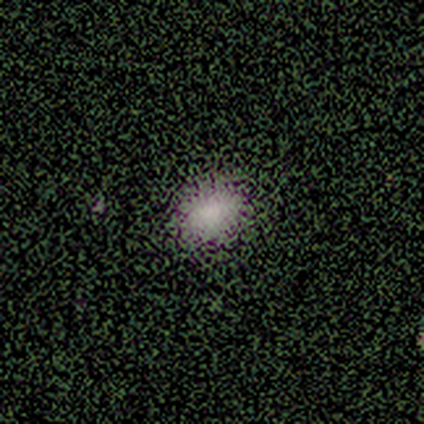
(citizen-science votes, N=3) This appears to be a smooth galaxy with no disk features (100%) that is round (67%). Merging: none (100%).